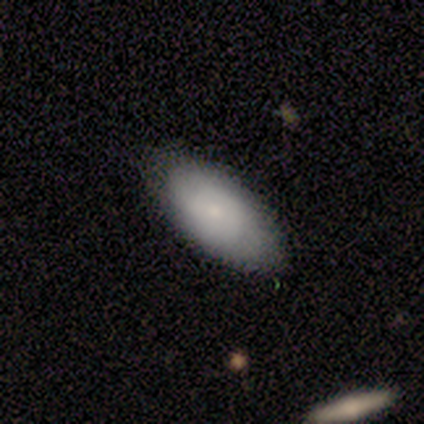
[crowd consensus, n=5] smooth_or_featured: smooth (p=0.80) [alt: star or artifact p=0.20]
how_rounded: in between (p=1.00)
merging: none (p=0.75) [alt: minor disturbance p=0.25]